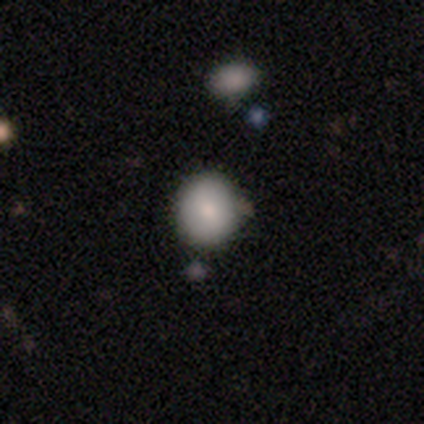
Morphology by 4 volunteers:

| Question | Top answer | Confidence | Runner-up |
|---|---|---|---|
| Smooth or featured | smooth | 75% | star or artifact (25%) |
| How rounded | in between | 67% | round (33%) |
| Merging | none | 33% | tied: minor disturbance (33%), merger (33%) |